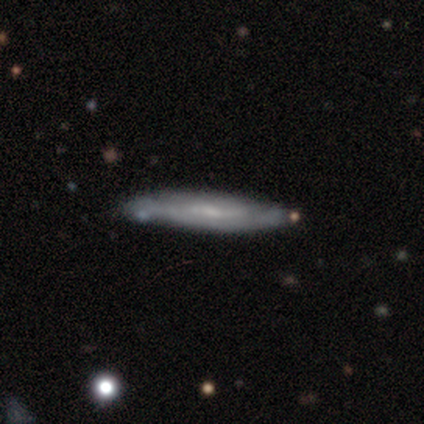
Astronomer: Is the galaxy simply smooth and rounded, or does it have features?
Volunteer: smooth — 50%, tied with featured or disk at 50%.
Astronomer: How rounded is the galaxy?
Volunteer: cigar-shaped — 100%.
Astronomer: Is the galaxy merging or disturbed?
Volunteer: none — 50%, tied with minor disturbance at 50%.